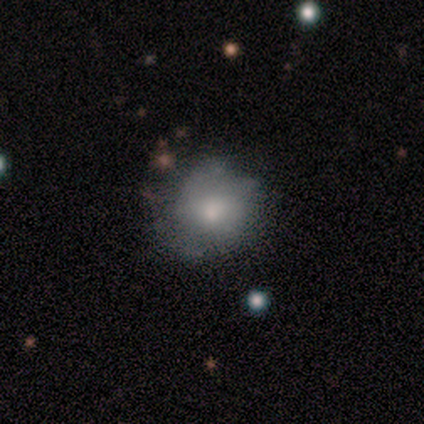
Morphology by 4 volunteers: Smooth or featured? smooth (100%)
How rounded? round (75%)
Merging? none (50%)